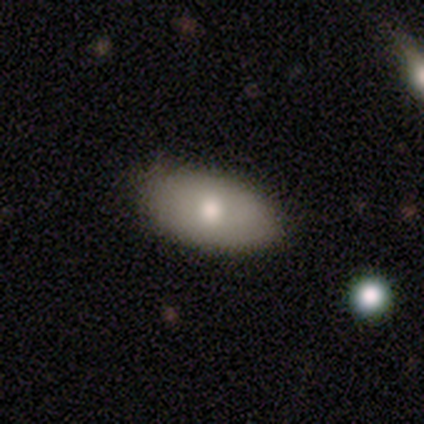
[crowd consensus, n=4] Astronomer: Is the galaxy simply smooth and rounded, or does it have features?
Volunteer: smooth — 100%.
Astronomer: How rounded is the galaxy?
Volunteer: in between — 100%.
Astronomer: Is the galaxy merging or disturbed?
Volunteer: none — 100%.